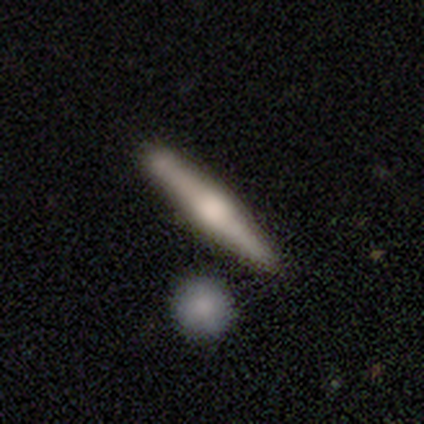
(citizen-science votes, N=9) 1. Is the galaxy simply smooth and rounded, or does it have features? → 56% featured or disk, 44% smooth, 0% star or artifact.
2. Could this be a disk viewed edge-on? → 100% yes, 0% no.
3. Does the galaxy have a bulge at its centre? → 80% rounded, 20% none, 0% boxy.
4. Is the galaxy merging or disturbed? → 67% none, 22% minor disturbance, 11% merger, 0% major disturbance.